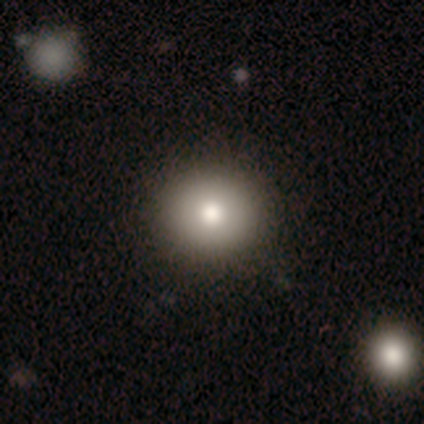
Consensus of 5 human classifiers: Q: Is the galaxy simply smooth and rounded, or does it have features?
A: smooth — 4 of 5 (80%).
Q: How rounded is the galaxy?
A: round — 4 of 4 (100%).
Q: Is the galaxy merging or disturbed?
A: none — 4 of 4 (100%).